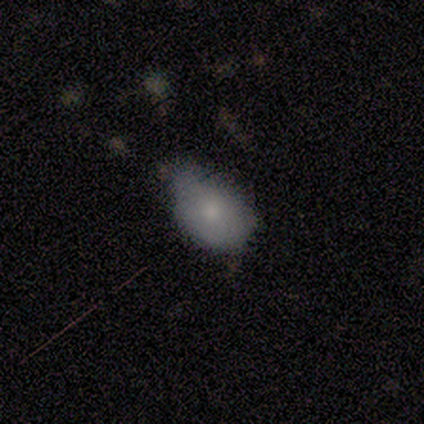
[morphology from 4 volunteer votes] This is clearly a smooth galaxy (100%). How rounded: clearly in between (100%). Merging: possibly none (50%, tied with minor disturbance).